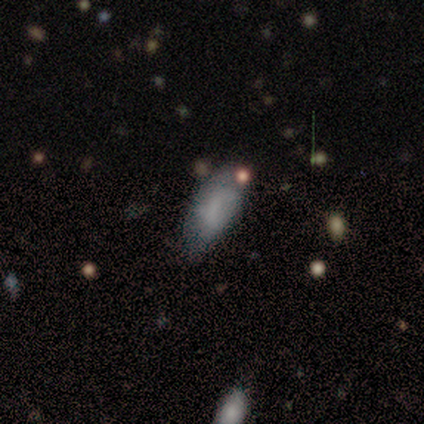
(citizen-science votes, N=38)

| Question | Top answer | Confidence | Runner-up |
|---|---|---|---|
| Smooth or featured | smooth | 58% | featured or disk (26%) |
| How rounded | in between | 91% | cigar-shaped (9%) |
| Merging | none | 59% | minor disturbance (19%) |